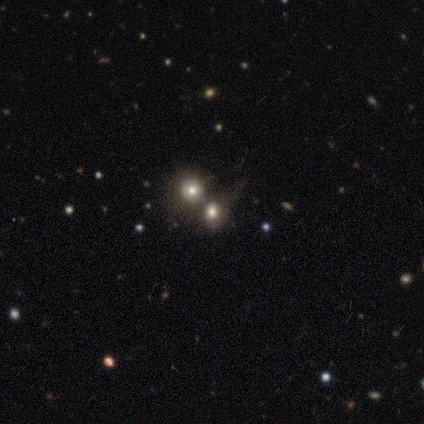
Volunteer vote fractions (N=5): smooth_or_featured: smooth (p=0.40) [tied with: featured or disk p=0.40]
how_rounded: round (p=0.50) [tied with: in between p=0.50]
merging: merger (p=1.00)